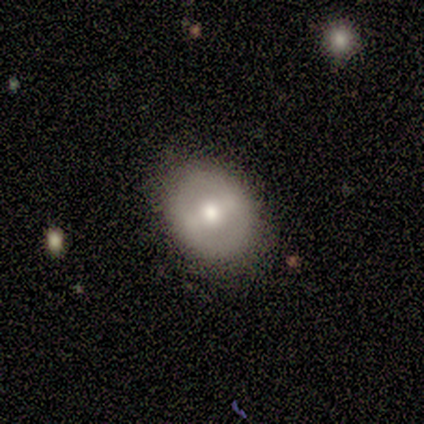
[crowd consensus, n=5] smooth_or_featured: smooth (p=0.40) [tied with: featured or disk p=0.40]
how_rounded: round (p=0.50) [tied with: in between p=0.50]
merging: none (p=0.75) [alt: minor disturbance p=0.25]